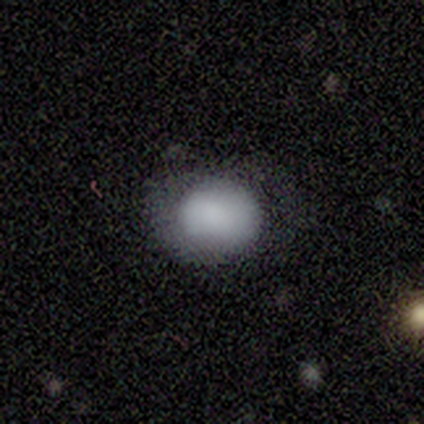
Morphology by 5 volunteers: A featured or disk galaxy (60%) with no bar (67%), no spiral arms (100%) and no central bulge (67%). Merging: minor disturbance (80%).